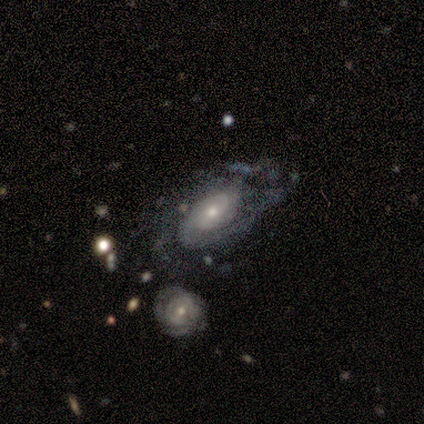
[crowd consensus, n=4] This appears to be a featured or disk galaxy (100%) with a weak bar (75%), 2 (75%) medium (75%) spiral arms (100%) and a moderate central bulge (50%). Merging: major disturbance (50%).